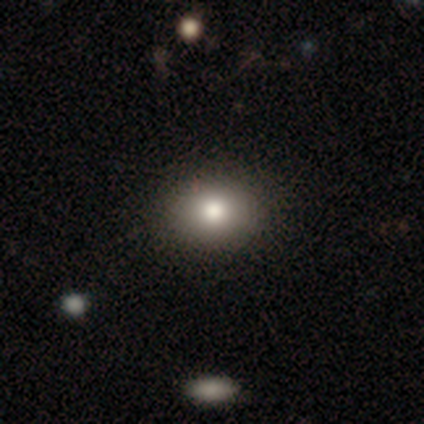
smooth-or-featured: smooth: 80% | featured or disk: 20% | star or artifact: 0%
  how-rounded: round: 50% (tied) | in between: 50% (tied) | cigar-shaped: 0%
  merging: none: 100% | minor disturbance: 0% | major disturbance: 0% | merger: 0%